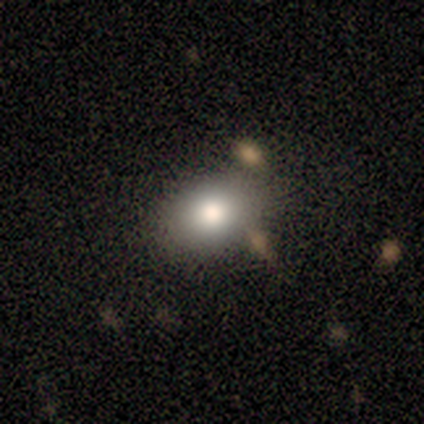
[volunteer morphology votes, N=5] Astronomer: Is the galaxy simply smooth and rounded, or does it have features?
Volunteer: smooth — 80%.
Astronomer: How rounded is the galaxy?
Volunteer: round — 75%.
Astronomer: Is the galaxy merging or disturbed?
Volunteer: none — 40% (runner-up: minor disturbance, 20%).